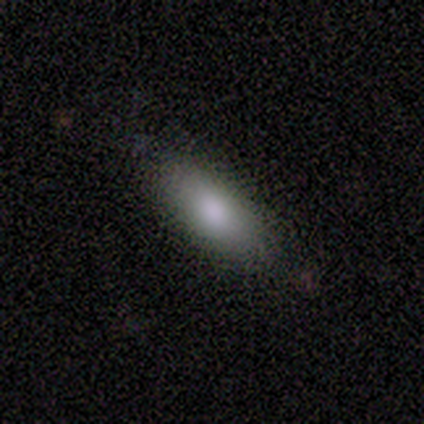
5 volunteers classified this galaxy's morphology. A smooth galaxy with no disk features (100%) that is in between round and cigar-shaped (80%).

Vote fractions:
- Smooth or featured? smooth: 100% / featured or disk: 0% / star or artifact: 0%
- How rounded? in between: 80% / cigar-shaped: 20% / round: 0%
- Merging? none: 60% / minor disturbance: 40% / major disturbance: 0% / merger: 0%